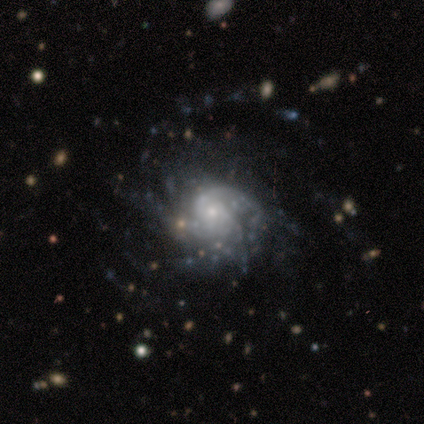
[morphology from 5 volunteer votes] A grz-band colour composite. It shows a featured or disk galaxy (100%) with no bar (60%), 2 (40%, tied with more than 4) tight (100%) spiral arms (100%) and a small central bulge (80%). Merging: none (40%, tied with major disturbance).